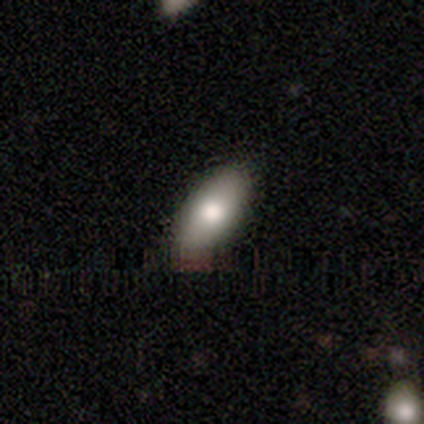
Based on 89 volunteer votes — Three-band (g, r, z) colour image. It shows a smooth galaxy with no disk features (69%) that is in between round and cigar-shaped (84%). Merging: none (83%).